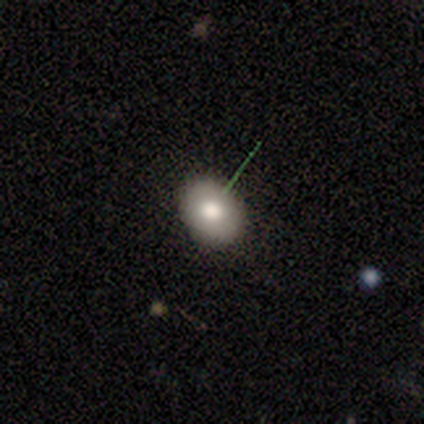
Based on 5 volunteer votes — A smooth galaxy with no disk features (100%) that is in between round and cigar-shaped (60%).

Vote fractions:
- Smooth or featured? smooth: 100% / featured or disk: 0% / star or artifact: 0%
- How rounded? in between: 60% / round: 40% / cigar-shaped: 0%
- Merging? none: 80% / minor disturbance: 20% / major disturbance: 0% / merger: 0%